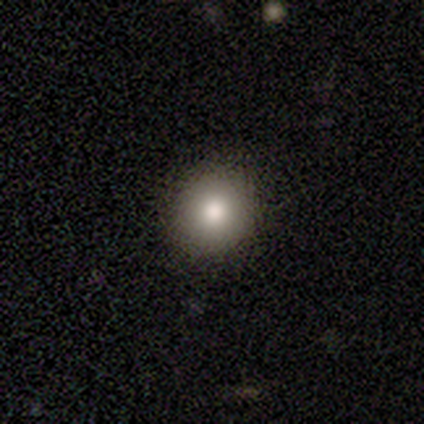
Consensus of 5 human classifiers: Smooth or featured? smooth (80%)
How rounded? round (100%)
Merging? none (100%)